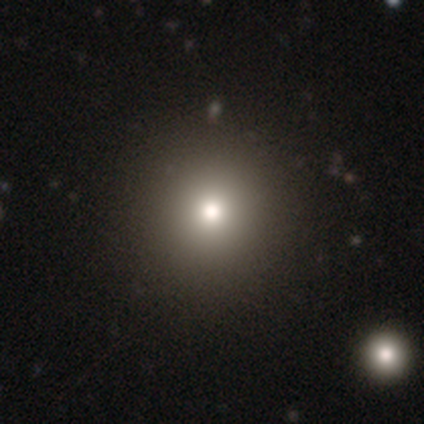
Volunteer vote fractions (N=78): Smooth or featured?
  - smooth: 77% *
  - star or artifact: 14%
  - featured or disk: 9%
How rounded?
  - round: 100% *
  - in between: 0%
  - cigar-shaped: 0%
Merging?
  - none: 52% *
  - minor disturbance: 1%
  - major disturbance: 1%
  - merger: 1%